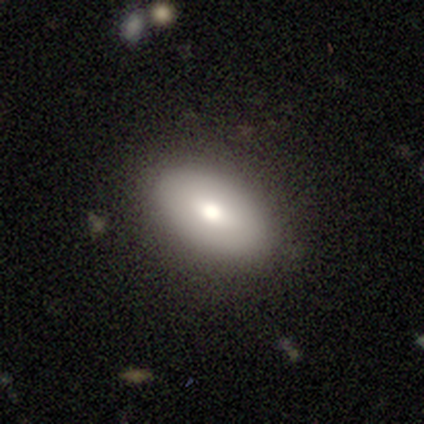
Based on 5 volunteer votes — Morphology: type=smooth (80%); roundness=in between (100%); merging=none (100%).